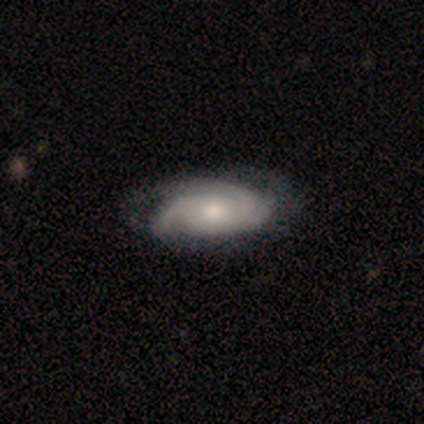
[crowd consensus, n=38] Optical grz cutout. It shows a featured or disk galaxy (87%) with no bar (91%), 3 (75%) tight (56%) spiral arms (100%) and a moderate central bulge (53%). Merging: none (54%).